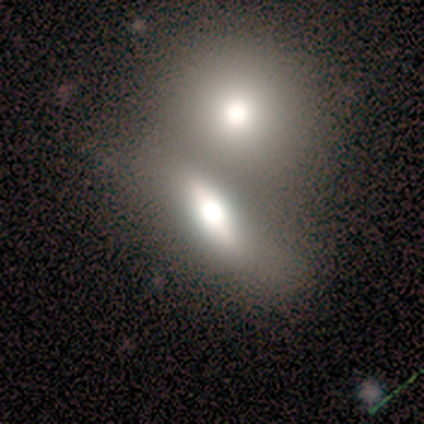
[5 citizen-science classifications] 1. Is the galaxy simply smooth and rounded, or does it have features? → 60% smooth, 20% featured or disk, 20% star or artifact.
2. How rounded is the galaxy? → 100% in between, 0% round, 0% cigar-shaped.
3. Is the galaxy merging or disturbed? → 100% merger, 0% none, 0% minor disturbance, 0% major disturbance.